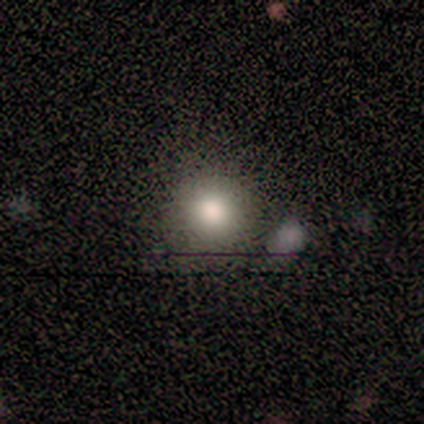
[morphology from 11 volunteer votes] type=smooth (91%); roundness=round (90%); merging=none (90%).